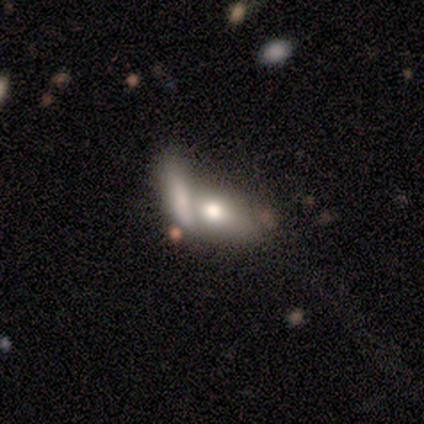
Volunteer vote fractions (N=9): Smooth or featured?
  - smooth: 56% *
  - featured or disk: 33%
  - star or artifact: 11%
How rounded?
  - in between: 80% *
  - cigar-shaped: 20%
  - round: 0%
Merging?
  - merger: 88% *
  - minor disturbance: 12%
  - none: 0%
  - major disturbance: 0%